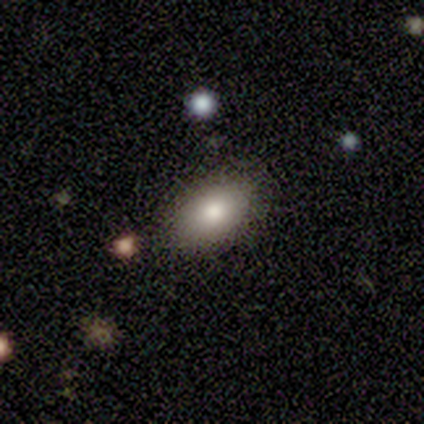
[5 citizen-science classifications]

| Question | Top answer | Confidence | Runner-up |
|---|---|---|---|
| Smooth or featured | smooth | 80% | star or artifact (20%) |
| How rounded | in between | 100% | — |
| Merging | none | 75% | minor disturbance (25%) |